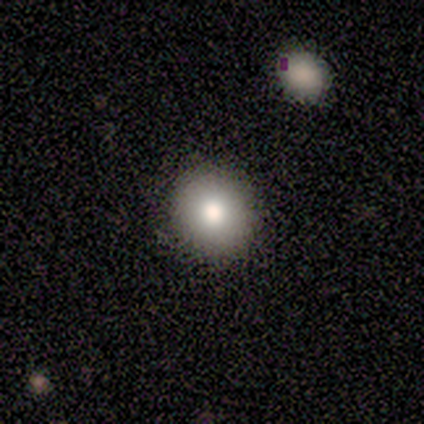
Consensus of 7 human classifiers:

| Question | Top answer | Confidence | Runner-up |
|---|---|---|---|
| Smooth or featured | smooth | 100% | — |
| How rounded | round | 86% | in between (14%) |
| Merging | none | 86% | minor disturbance (14%) |